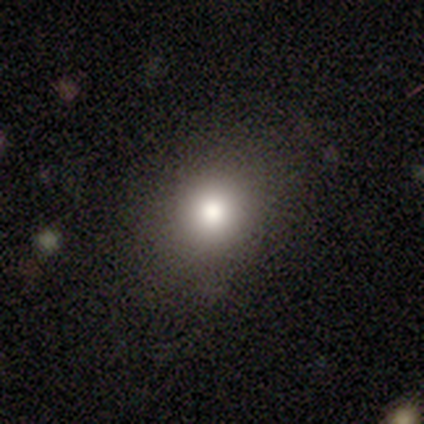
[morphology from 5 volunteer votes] This appears to be a smooth galaxy with no disk features (80%) that is round (75%). Merging: none (100%).